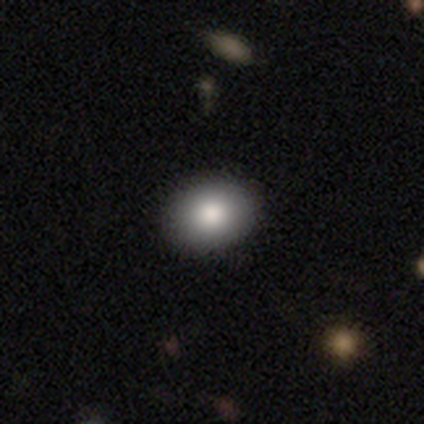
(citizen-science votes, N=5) Smooth or featured? smooth (100%)
How rounded? in between (60%)
Merging? none (100%)